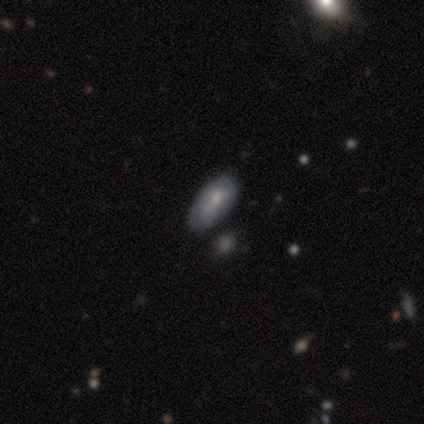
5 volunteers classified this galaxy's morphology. Smooth or featured: smooth — 80% (featured or disk — 20%)
How rounded: in between — 100%
Merging: none — 60% (minor disturbance — 40%)